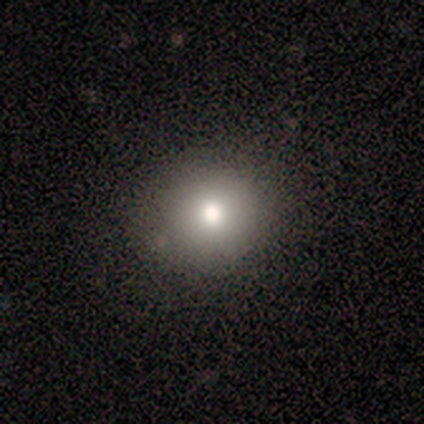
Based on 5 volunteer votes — Consensus on every question: smooth or featured — smooth (100%); how rounded — round (100%); merging — none (100%).